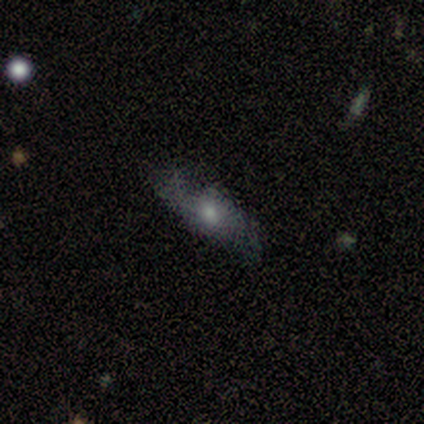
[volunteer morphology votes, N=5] Smooth or featured? smooth (40%, tied with featured or disk)
How rounded? in between (50%, tied with cigar-shaped)
Merging? minor disturbance (50%, tied with major disturbance)